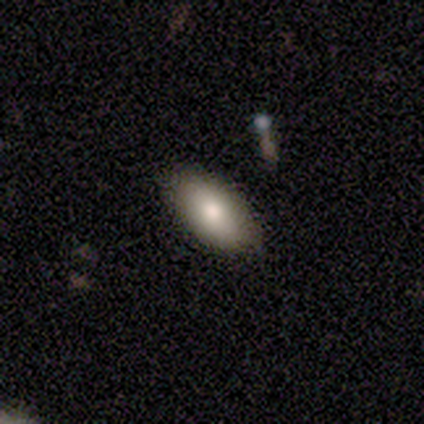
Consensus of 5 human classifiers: Volunteers were most divided on "smooth or featured": smooth: 80%, featured or disk: 20%, star or artifact: 0%. More confident: how rounded — in between (100%); merging — none (100%).